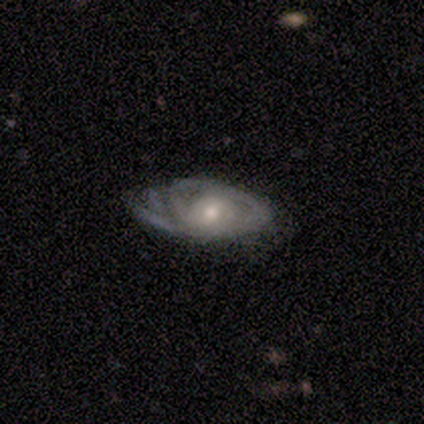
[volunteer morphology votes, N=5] type=featured or disk (100%); edge-on=no (80%); bar=no (75%); spiral arms=yes (100%); winding=medium (75%); arm count=1 (50%, tied with can't tell); bulge=moderate (50%, tied with small); merging=none (40%, tied with major disturbance).